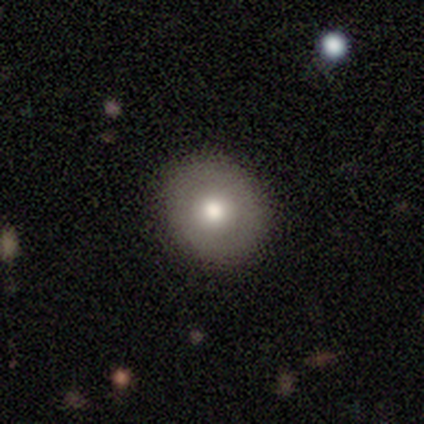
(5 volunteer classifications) This appears to be a smooth galaxy with no disk features (80%) that is round (75%). Merging: none (100%).